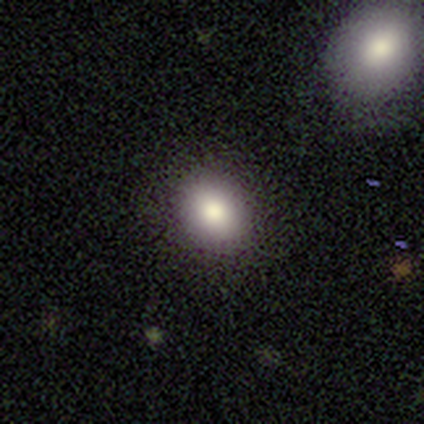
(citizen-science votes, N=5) Smooth or featured? smooth (100%)
How rounded? round (80%)
Merging? none (80%)